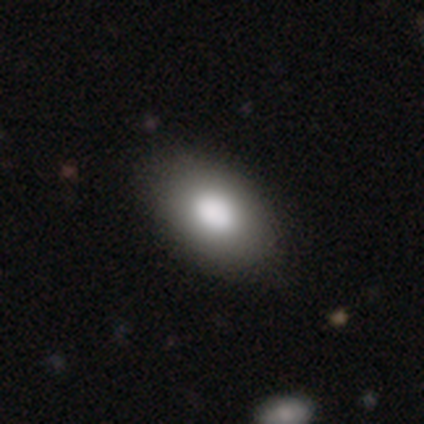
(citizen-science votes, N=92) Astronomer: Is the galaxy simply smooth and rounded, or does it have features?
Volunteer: smooth — 88%.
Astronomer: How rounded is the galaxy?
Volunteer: in between — 88%.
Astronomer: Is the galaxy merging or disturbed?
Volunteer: none — 80%.